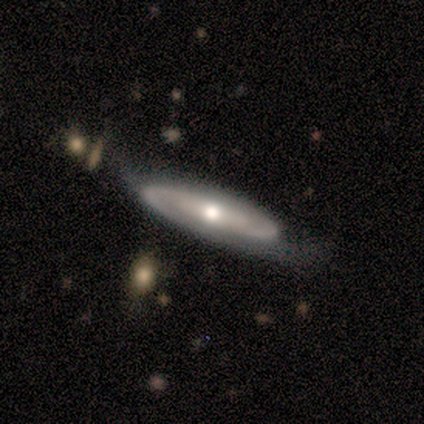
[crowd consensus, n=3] A featured or disk galaxy (67%) viewed edge-on (100%) with a boxy central bulge (50%, tied with rounded).

Vote fractions:
- Smooth or featured? featured or disk: 67% / smooth: 33% / star or artifact: 0%
- Edge-on disk? yes: 100% / no: 0%
- Edge-on bulge? boxy: 50% (tied) / rounded: 50% (tied) / none: 0%
- Merging? none: 67% / minor disturbance: 33% / major disturbance: 0% / merger: 0%